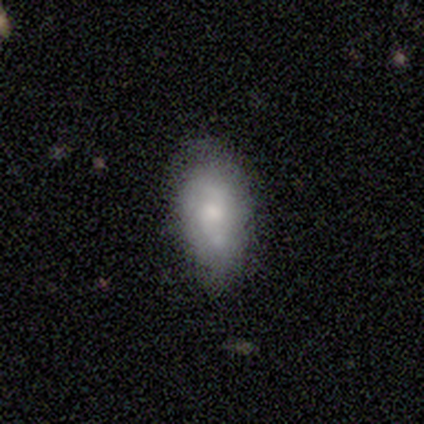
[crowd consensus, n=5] A smooth galaxy with no disk features (60%) that is in between round and cigar-shaped (67%). Merging: minor disturbance (60%).